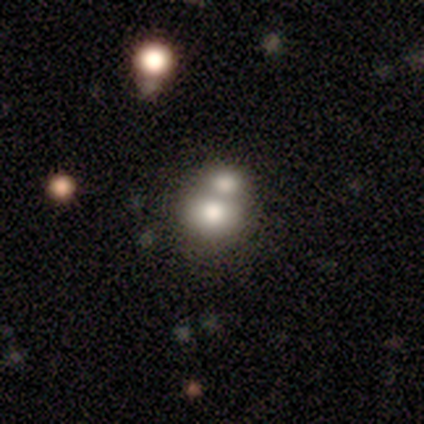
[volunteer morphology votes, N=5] Smooth or featured?
  - smooth: 60% *
  - featured or disk: 40%
  - star or artifact: 0%
How rounded?
  - round: 100% *
  - in between: 0%
  - cigar-shaped: 0%
Merging?
  - merger: 80% *
  - none: 20%
  - minor disturbance: 0%
  - major disturbance: 0%